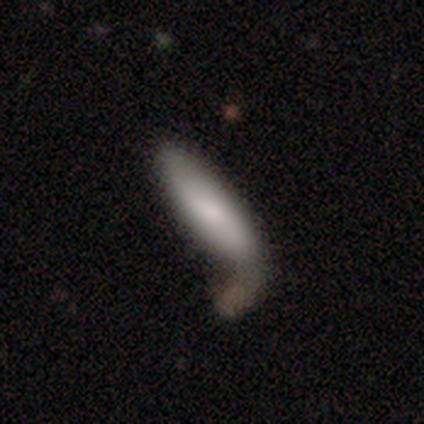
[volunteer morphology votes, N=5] A smooth galaxy with no disk features (80%) that is in between round and cigar-shaped (50%, tied with cigar-shaped). Merging: none (60%).